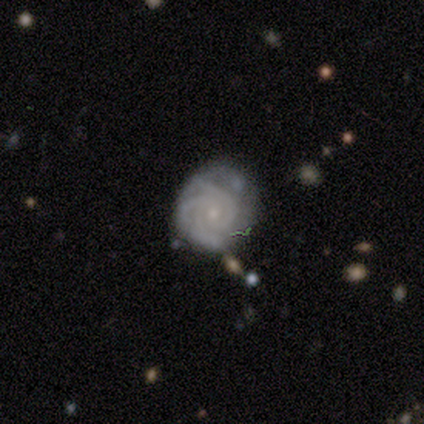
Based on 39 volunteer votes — featured or disk 85%, smooth 8%, star or artifact 8%. Down the decision tree: edge-on disk — no (100%); bar — no (64%); spiral arms — yes (94%); spiral arm count — 3 (65%); spiral winding — tight (61%); bulge size — small (76%); merging — none (67%).